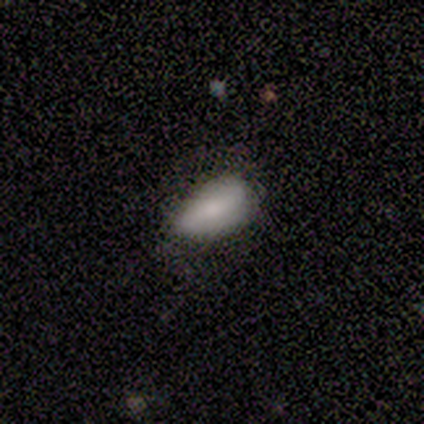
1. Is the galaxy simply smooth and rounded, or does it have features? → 60% smooth, 40% star or artifact, 0% featured or disk.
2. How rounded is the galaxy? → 100% in between, 0% round, 0% cigar-shaped.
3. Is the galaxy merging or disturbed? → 67% minor disturbance, 33% none, 0% major disturbance, 0% merger.